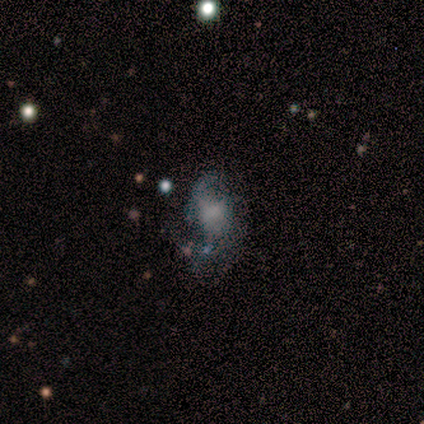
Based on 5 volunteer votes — smooth_or_featured: featured or disk (p=0.60) [alt: smooth p=0.40]
disk_edge_on: no (p=1.00)
bar: no (p=1.00)
has_spiral_arms: no (p=1.00)
bulge_size: none (p=1.00)
merging: none (p=0.40) [tied with: major disturbance p=0.40]